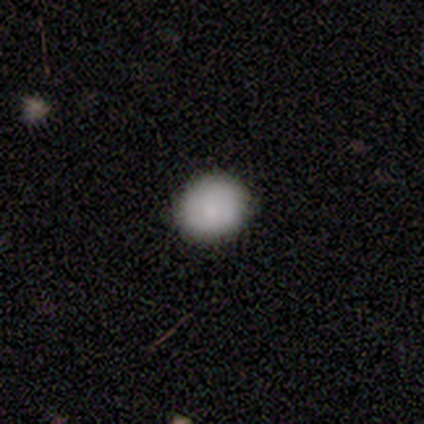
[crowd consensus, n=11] Smooth or featured: smooth — 91% (star or artifact — 9%)
How rounded: round — 90% (in between — 10%)
Merging: none — 90% (minor disturbance — 10%)